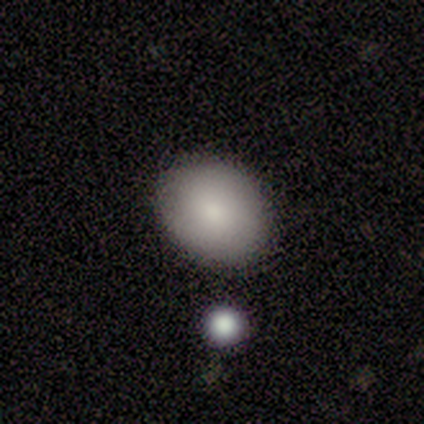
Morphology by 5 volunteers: Smooth or featured? 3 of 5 (60%) said smooth. How rounded? 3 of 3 (100%) said in between. Merging? 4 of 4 (100%) said none.